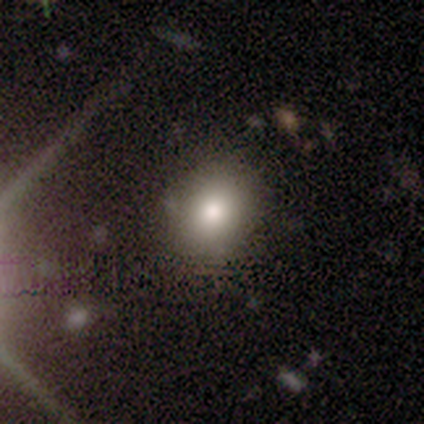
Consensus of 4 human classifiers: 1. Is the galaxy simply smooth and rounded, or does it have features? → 100% smooth, 0% featured or disk, 0% star or artifact.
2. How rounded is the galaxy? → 100% round, 0% in between, 0% cigar-shaped.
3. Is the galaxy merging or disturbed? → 100% none, 0% minor disturbance, 0% major disturbance, 0% merger.